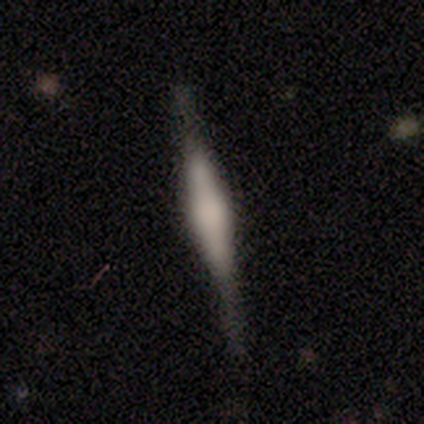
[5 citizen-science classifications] A smooth galaxy with no disk features (60%) that is cigar-shaped (100%). Merging: none (80%).